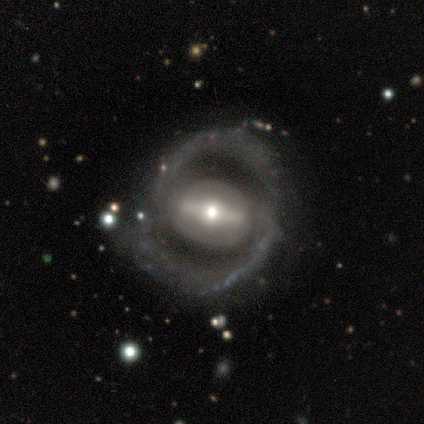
This is clearly a featured or disk galaxy (80%). It is likely not viewed edge-on (75%). Bar: likely strong (67%). Spiral arm pattern: clearly yes (100%). Spiral arm count: clearly 2 (100%). Spiral winding: likely medium (67%). Central bulge: likely moderate (67%). Merging: marginally none (40%, tied with major disturbance).